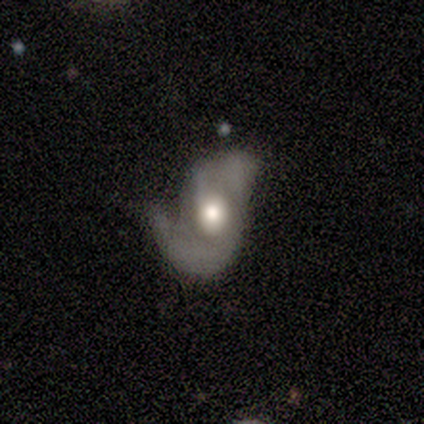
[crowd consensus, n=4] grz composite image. It shows a featured or disk galaxy (75%) with no bar (67%), 2 (67%) loose (67%) spiral arms (100%) and a moderate central bulge (67%). Merging: none (50%).